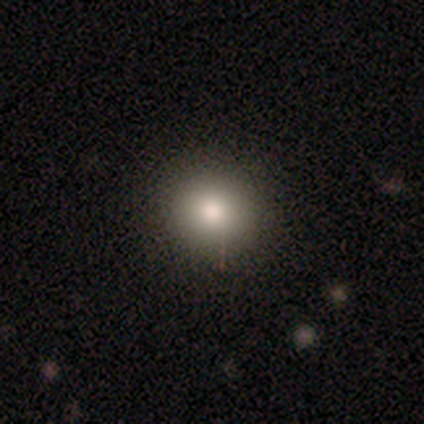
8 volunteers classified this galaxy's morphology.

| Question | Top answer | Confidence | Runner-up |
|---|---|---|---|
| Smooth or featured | smooth | 75% | star or artifact (25%) |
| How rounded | round | 83% | in between (17%) |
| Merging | none | 100% | — |